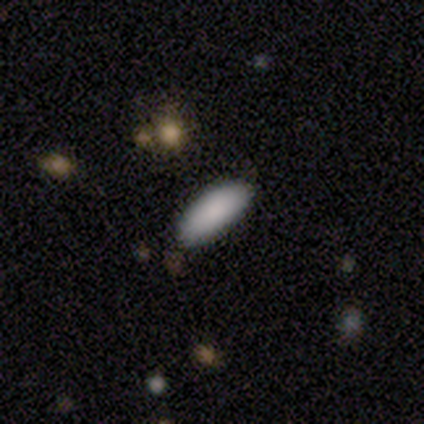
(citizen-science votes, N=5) Smooth or featured: smooth — 100%
How rounded: in between — 100%
Merging: none — 60% (minor disturbance — 20%)